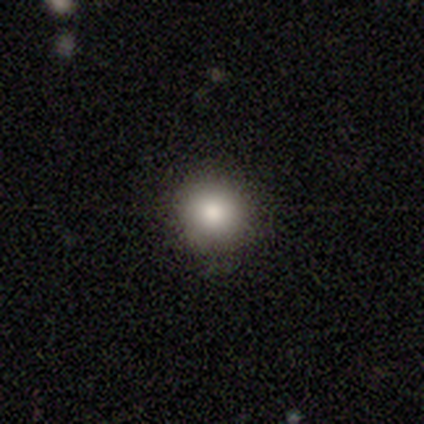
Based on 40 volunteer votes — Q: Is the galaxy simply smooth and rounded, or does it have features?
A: smooth — 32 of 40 (80%).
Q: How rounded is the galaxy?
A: round — 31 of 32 (97%).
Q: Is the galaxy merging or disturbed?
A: none — 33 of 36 (92%).